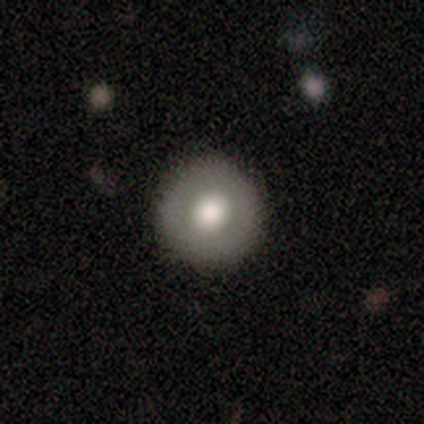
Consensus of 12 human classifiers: smooth 83%, featured or disk 17%, star or artifact 0%. Down the decision tree: how rounded — round (90%); merging — none (75%).